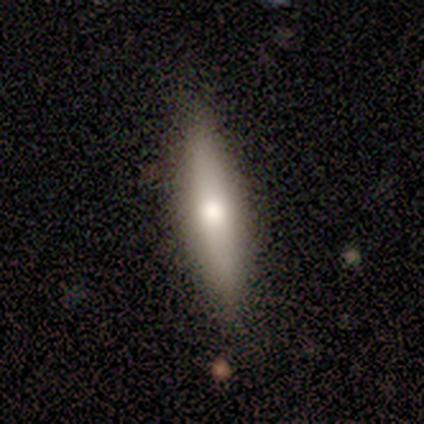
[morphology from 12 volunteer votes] smooth-or-featured: smooth: 58% | featured or disk: 42% | star or artifact: 0%
  how-rounded: cigar-shaped: 100% | round: 0% | in between: 0%
  merging: none: 75% | minor disturbance: 25% | major disturbance: 0% | merger: 0%